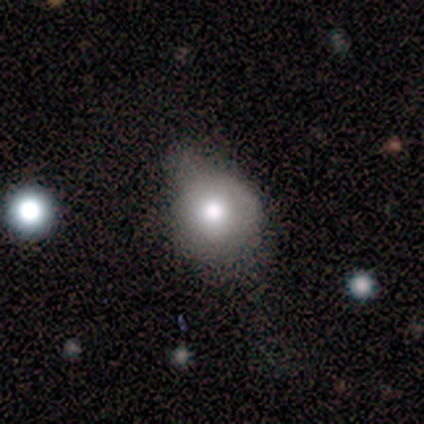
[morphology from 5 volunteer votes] Smooth or featured?
  - smooth: 60% *
  - featured or disk: 40%
  - star or artifact: 0%
How rounded?
  - round: 100% *
  - in between: 0%
  - cigar-shaped: 0%
Merging?
  - none: 60% *
  - minor disturbance: 40%
  - major disturbance: 0%
  - merger: 0%